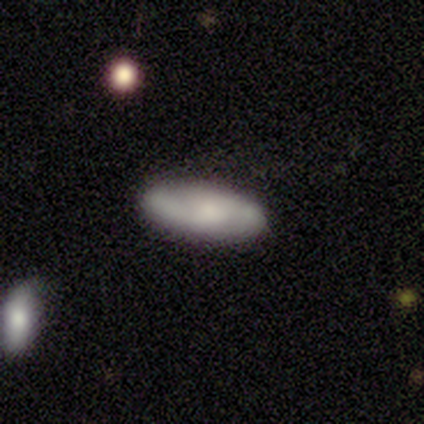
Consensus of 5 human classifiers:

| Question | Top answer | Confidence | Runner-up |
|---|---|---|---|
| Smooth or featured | smooth | 60% | featured or disk (40%) |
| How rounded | in between | 100% | — |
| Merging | none | 100% | — |